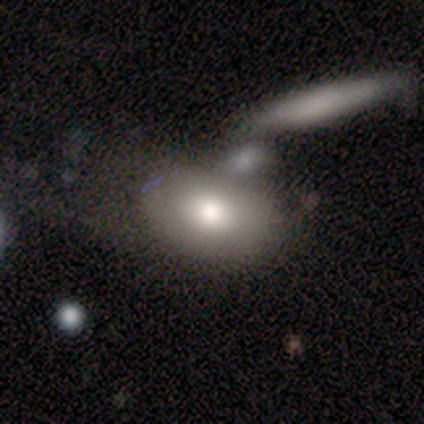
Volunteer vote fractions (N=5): Smooth or featured? 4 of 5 (80%) said smooth. How rounded? 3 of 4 (75%) said in between. Merging? 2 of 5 (40%, tied with minor disturbance) said none.